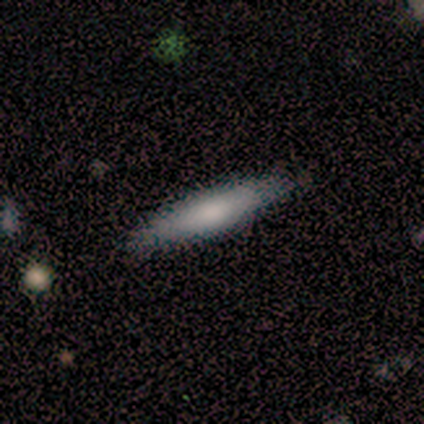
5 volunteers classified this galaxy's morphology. Smooth or featured?
  - smooth: 40% * (tied)
  - featured or disk: 40% * (tied)
  - star or artifact: 20%
How rounded?
  - cigar-shaped: 100% *
  - round: 0%
  - in between: 0%
Merging?
  - none: 75% *
  - minor disturbance: 25%
  - major disturbance: 0%
  - merger: 0%